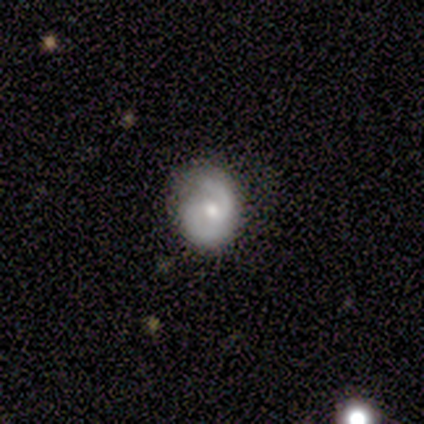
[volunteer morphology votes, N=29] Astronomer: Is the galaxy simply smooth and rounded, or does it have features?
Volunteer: featured or disk — 76%.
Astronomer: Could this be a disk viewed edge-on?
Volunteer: no — 100%.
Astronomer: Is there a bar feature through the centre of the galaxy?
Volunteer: weak — 50% (runner-up: no, 41%).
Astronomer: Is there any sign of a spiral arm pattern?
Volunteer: yes — 91%.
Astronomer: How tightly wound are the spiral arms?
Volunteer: tight — 45% (runner-up: medium, 35%).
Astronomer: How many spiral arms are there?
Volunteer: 2 — 95%.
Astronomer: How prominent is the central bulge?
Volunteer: moderate — 73%.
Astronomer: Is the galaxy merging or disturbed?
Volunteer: none — 78%.